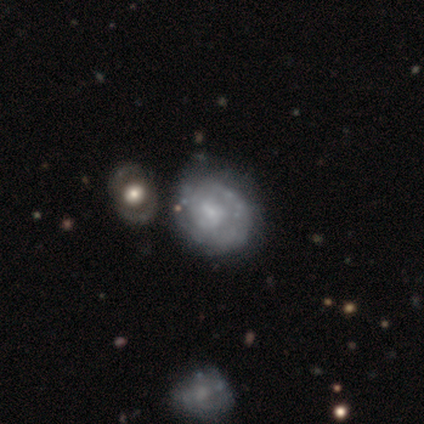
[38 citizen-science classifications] smooth_or_featured: featured or disk (p=0.79) [alt: smooth p=0.18]
disk_edge_on: no (p=1.00)
bar: no (p=0.57) [alt: weak p=0.40]
has_spiral_arms: yes (p=0.60) [alt: no p=0.40]
spiral_winding: tight (p=0.67) [alt: medium p=0.17]
spiral_arm_count: can't tell (p=0.72) [alt: 1 p=0.11]
bulge_size: small (p=0.60) [alt: moderate p=0.17]
merging: none (p=0.43) [alt: minor disturbance p=0.19]